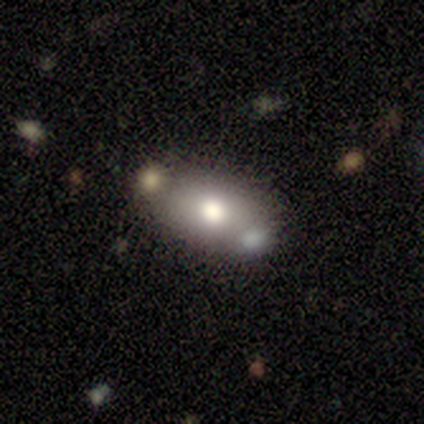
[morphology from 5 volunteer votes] Volunteers were most divided on "smooth or featured": smooth: 60%, featured or disk: 40%, star or artifact: 0%. More confident: how rounded — in between (100%); merging — none (100%).